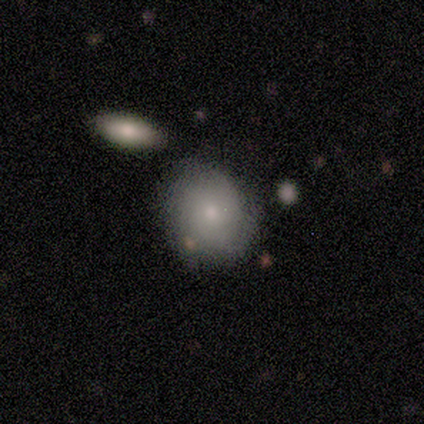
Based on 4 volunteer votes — A smooth galaxy with no disk features (75%) that is round (67%).

Vote fractions:
- Smooth or featured? smooth: 75% / featured or disk: 25% / star or artifact: 0%
- How rounded? round: 67% / in between: 33% / cigar-shaped: 0%
- Merging? none: 100% / minor disturbance: 0% / major disturbance: 0% / merger: 0%